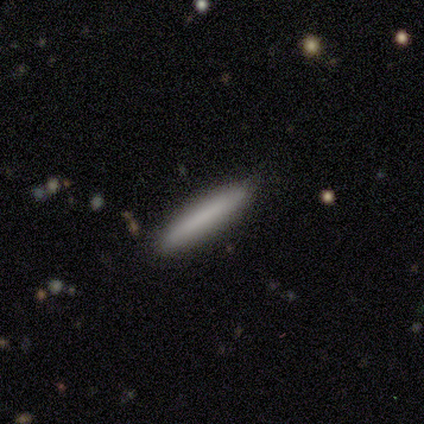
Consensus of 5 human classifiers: This is clearly a smooth galaxy (80%). How rounded: clearly cigar-shaped (100%). Merging: clearly none (80%).